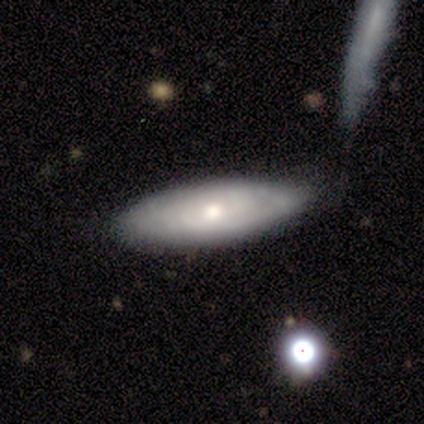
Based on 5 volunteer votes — Volunteers were most divided on "how rounded": in between: 75%, cigar-shaped: 25%, round: 0%. More confident: smooth or featured — smooth (80%); merging — none (80%).